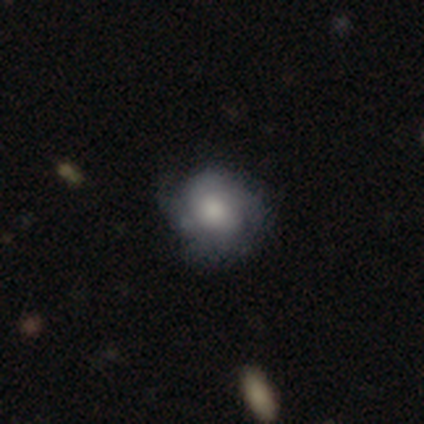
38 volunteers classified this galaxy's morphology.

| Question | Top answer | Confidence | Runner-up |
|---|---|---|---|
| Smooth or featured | smooth | 53% | featured or disk (37%) |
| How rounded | round | 55% | in between (45%) |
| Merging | none | 65% | minor disturbance (29%) |